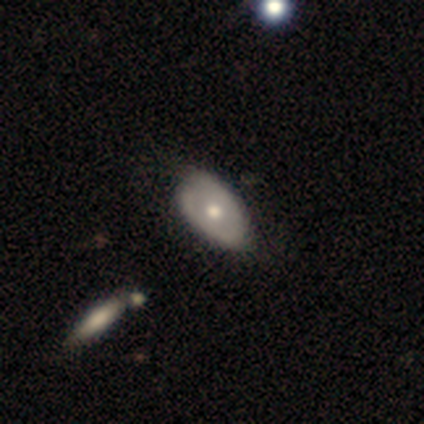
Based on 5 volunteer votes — This appears to be a smooth galaxy with no disk features (40%, tied with star or artifact) that is round (50%, tied with in between). Merging: none (67%).